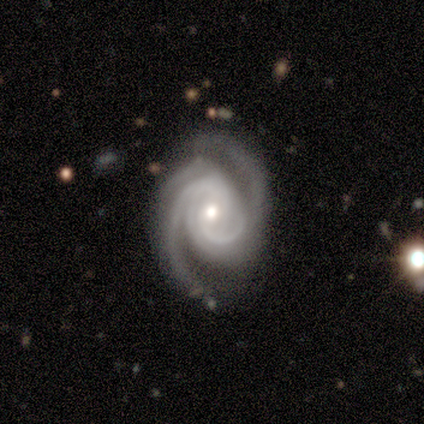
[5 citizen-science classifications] Smooth or featured: featured or disk — 100%
Edge-on disk: no — 100%
Bar: no — 60% (weak — 40%)
Spiral arms: yes — 100%
Spiral winding: medium — 80% (tight — 20%)
Spiral arm count: 2 — 60% (1 — 20%)
Bulge size: moderate — 60% (small — 40%)
Merging: major disturbance — 60% (minor disturbance — 40%)